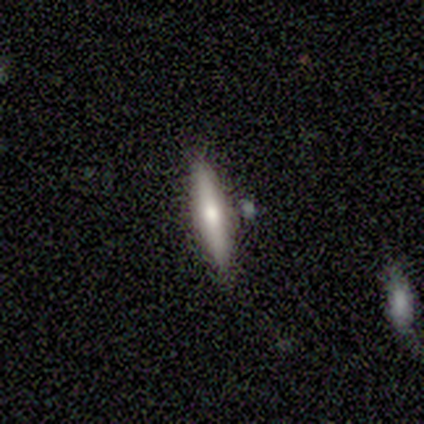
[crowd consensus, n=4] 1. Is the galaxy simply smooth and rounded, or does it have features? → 100% smooth, 0% featured or disk, 0% star or artifact.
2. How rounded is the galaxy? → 75% cigar-shaped, 25% in between, 0% round.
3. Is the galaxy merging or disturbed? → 100% none, 0% minor disturbance, 0% major disturbance, 0% merger.